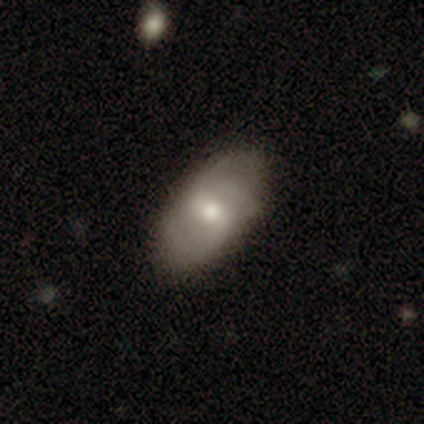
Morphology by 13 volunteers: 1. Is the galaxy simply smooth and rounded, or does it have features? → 62% featured or disk, 38% smooth, 0% star or artifact.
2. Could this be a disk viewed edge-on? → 88% no, 12% yes.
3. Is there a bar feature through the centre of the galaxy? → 71% weak, 14% strong, 14% no.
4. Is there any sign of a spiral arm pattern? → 86% yes, 14% no.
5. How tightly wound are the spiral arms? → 50% tight, 33% medium, 17% loose.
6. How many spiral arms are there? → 50% 2 (tied), 50% can't tell (tied), 0% 1, 0% 3, 0% 4, 0% more than 4.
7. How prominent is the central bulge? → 57% moderate, 43% small, 0% dominant, 0% large, 0% none.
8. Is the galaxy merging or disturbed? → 77% none, 23% minor disturbance, 0% major disturbance, 0% merger.